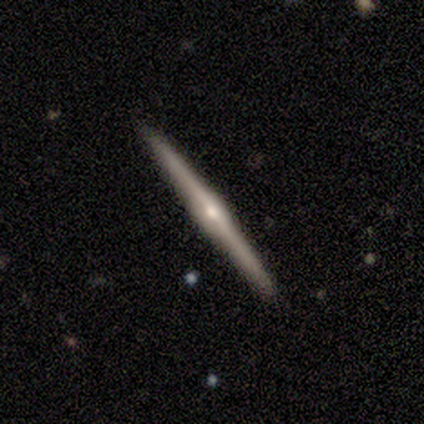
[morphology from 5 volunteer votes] A featured or disk galaxy (80%) viewed edge-on (100%) with a rounded central bulge (100%).

Vote fractions:
- Smooth or featured? featured or disk: 80% / smooth: 20% / star or artifact: 0%
- Edge-on disk? yes: 100% / no: 0%
- Edge-on bulge? rounded: 100% / boxy: 0% / none: 0%
- Merging? none: 80% / minor disturbance: 20% / major disturbance: 0% / merger: 0%